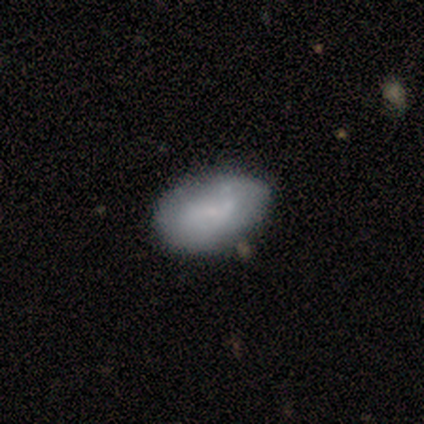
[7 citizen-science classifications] Smooth or featured: smooth — 71% (featured or disk — 14%)
How rounded: in between — 80% (cigar-shaped — 20%)
Merging: none — 67% (minor disturbance — 33%)